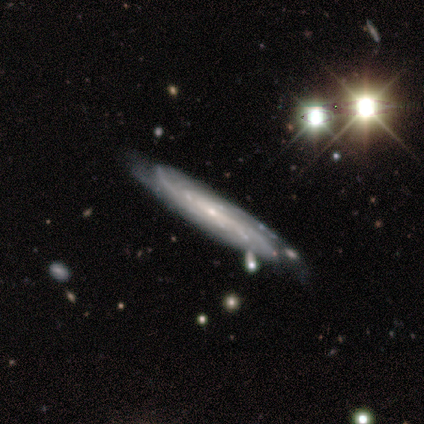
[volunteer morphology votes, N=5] Smooth or featured?
  - featured or disk: 60% *
  - smooth: 20%
  - star or artifact: 20%
Edge-on disk?
  - yes: 67% *
  - no: 33%
Edge-on bulge?
  - none: 100% *
  - boxy: 0%
  - rounded: 0%
Merging?
  - none: 50% * (tied)
  - merger: 50% * (tied)
  - minor disturbance: 0%
  - major disturbance: 0%